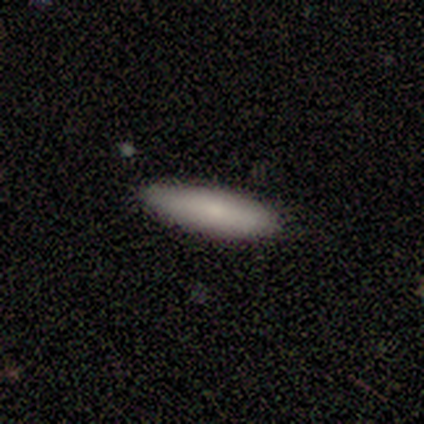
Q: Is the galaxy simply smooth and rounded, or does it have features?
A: smooth — 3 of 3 (100%).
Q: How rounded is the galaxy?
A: in between — 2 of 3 (67%).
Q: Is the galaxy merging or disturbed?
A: none — 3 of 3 (100%).